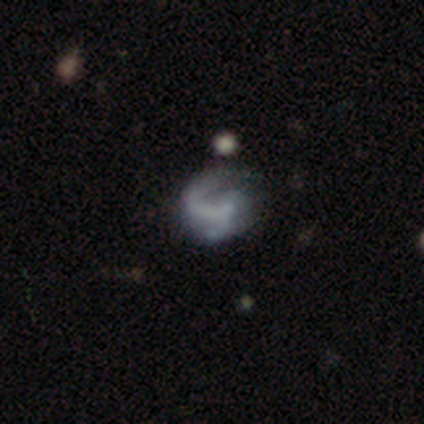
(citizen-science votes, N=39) featured or disk 79%, smooth 18%, star or artifact 3%. Down the decision tree: edge-on disk — no (100%); bar — no (52%); spiral arms — yes (74%); spiral arm count — 1 (70%); spiral winding — loose (48%); bulge size — none (74%); merging — major disturbance (39%).